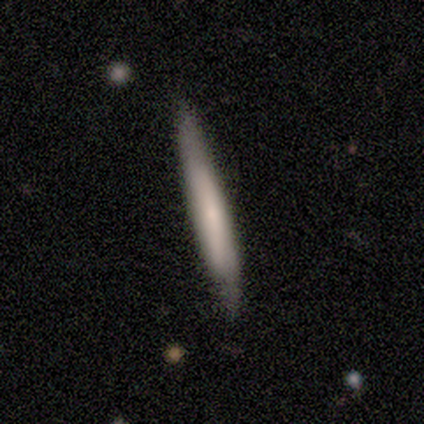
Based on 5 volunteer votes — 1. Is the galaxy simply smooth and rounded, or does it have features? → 100% smooth, 0% featured or disk, 0% star or artifact.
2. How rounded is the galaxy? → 100% cigar-shaped, 0% round, 0% in between.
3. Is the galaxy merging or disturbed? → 80% none, 20% minor disturbance, 0% major disturbance, 0% merger.